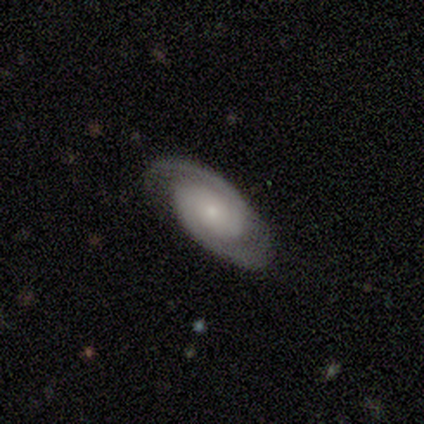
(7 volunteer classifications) A featured or disk galaxy (100%) with no bar (80%), 2 (100%) tight (80%) spiral arms (100%) and a small central bulge (60%). Merging: none (57%).